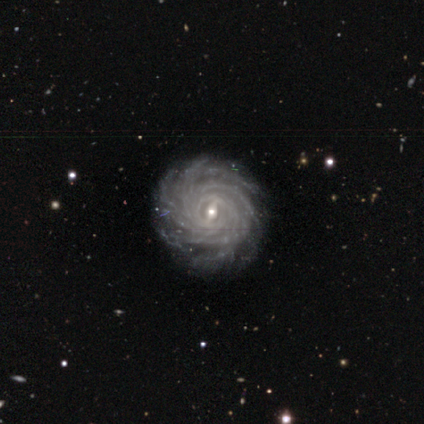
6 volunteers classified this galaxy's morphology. Smooth or featured? featured or disk (100%)
Edge-on disk? no (100%)
Bar? weak (83%)
Spiral arms? yes (83%)
Spiral winding? tight (80%)
Spiral arm count? more than 4 (100%)
Bulge size? small (67%)
Merging? none (83%)